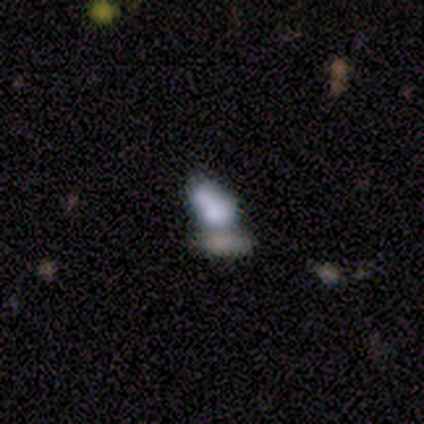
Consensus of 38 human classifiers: Smooth or featured? 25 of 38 (66%) said smooth. How rounded? 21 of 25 (84%) said in between. Merging? 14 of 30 (47%) said merger.